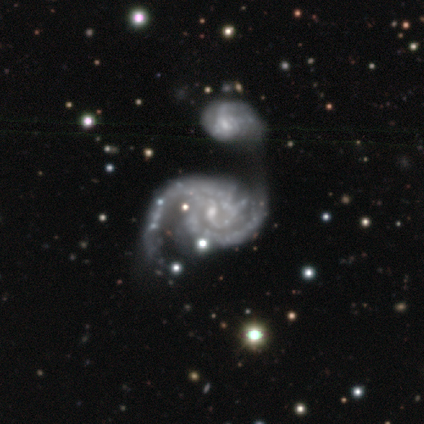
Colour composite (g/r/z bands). It shows a featured or disk galaxy (100%) with no bar (60%), 2 (80%) tight (80%) spiral arms (100%) and a small central bulge (80%). Merging: merger (60%).